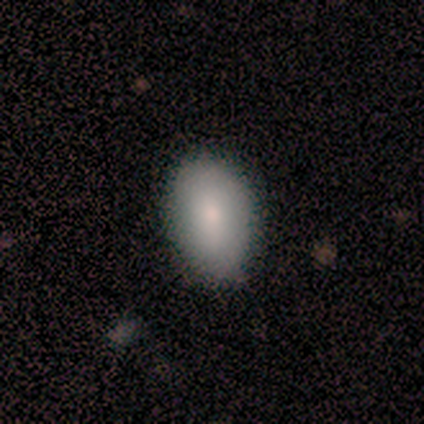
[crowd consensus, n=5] Smooth or featured?
  - smooth: 80% *
  - featured or disk: 20%
  - star or artifact: 0%
How rounded?
  - in between: 100% *
  - round: 0%
  - cigar-shaped: 0%
Merging?
  - none: 40% * (tied)
  - minor disturbance: 40% * (tied)
  - major disturbance: 20%
  - merger: 0%